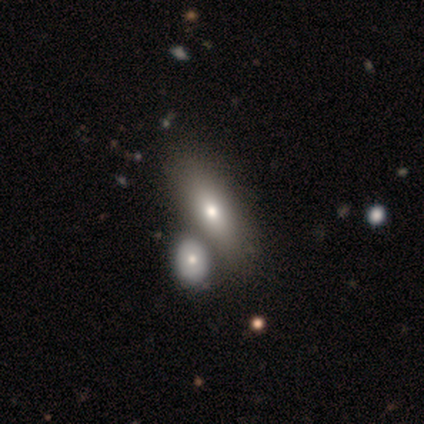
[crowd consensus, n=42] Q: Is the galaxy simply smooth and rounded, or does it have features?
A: smooth — 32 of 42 (76%).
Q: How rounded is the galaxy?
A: in between — 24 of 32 (75%).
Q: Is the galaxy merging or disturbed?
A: merger — 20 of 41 (49%).